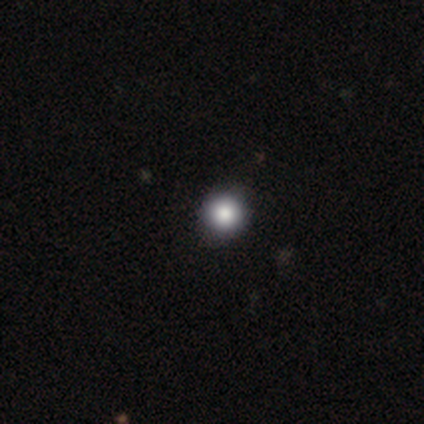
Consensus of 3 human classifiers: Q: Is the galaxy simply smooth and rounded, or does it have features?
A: smooth — 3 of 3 (100%).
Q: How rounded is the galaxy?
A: round — 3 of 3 (100%).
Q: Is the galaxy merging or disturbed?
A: none — 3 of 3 (100%).